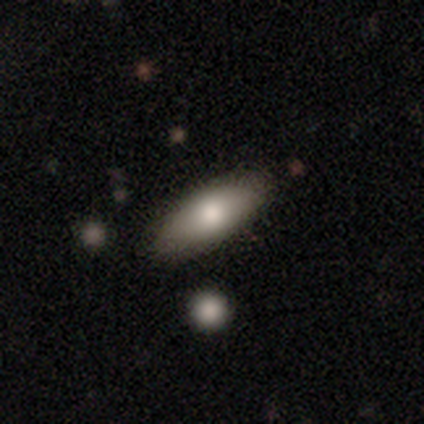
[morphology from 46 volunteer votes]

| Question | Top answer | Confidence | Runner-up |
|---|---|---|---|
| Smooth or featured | smooth | 78% | featured or disk (11%) |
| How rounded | in between | 81% | cigar-shaped (17%) |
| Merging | none | 85% | minor disturbance (7%) |